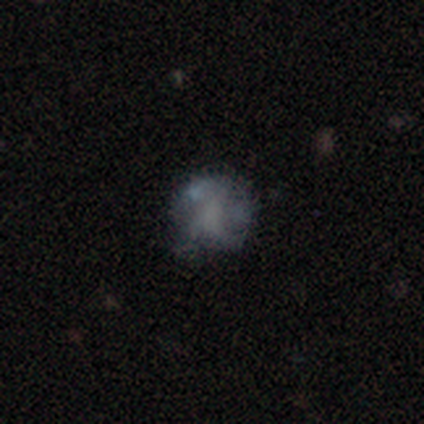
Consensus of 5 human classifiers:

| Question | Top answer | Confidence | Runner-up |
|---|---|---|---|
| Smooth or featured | smooth | 60% | featured or disk (40%) |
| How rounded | round | 100% | — |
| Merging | none | 60% | minor disturbance (20%) |